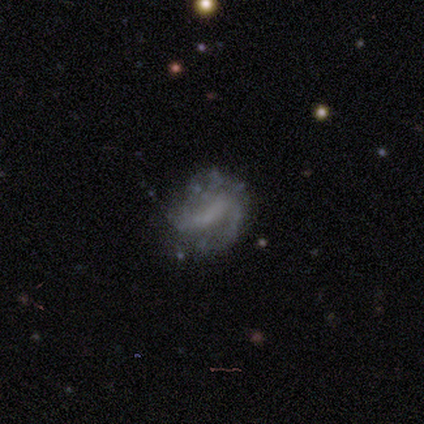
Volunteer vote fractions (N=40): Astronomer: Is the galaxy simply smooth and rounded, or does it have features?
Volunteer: featured or disk — 78%.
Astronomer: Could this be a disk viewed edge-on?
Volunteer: no — 100%.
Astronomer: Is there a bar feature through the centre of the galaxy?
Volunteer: weak — 48% (runner-up: strong, 32%).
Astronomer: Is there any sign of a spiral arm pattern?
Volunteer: yes — 77%.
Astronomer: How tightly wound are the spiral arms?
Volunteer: loose — 38% (runner-up: medium, 33%).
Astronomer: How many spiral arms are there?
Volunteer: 2 — 71%.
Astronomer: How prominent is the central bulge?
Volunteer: none — 65%.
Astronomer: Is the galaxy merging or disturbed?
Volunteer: none — 59%.